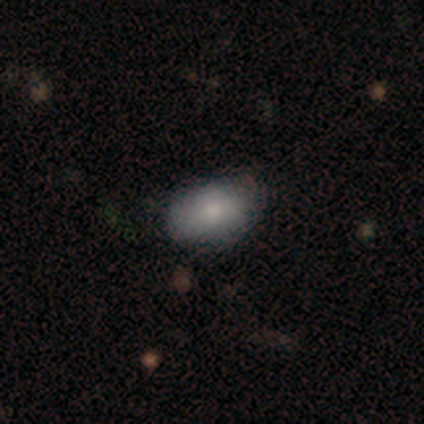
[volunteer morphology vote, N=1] Smooth or featured: smooth — 100%
How rounded: in between — 100%
Merging: none — 100%